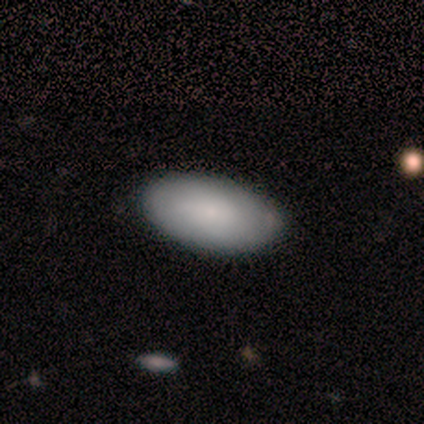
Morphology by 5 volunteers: A smooth galaxy with no disk features (60%) that is in between round and cigar-shaped (67%).

Vote fractions:
- Smooth or featured? smooth: 60% / star or artifact: 40% / featured or disk: 0%
- How rounded? in between: 67% / cigar-shaped: 33% / round: 0%
- Merging? none: 100% / minor disturbance: 0% / major disturbance: 0% / merger: 0%